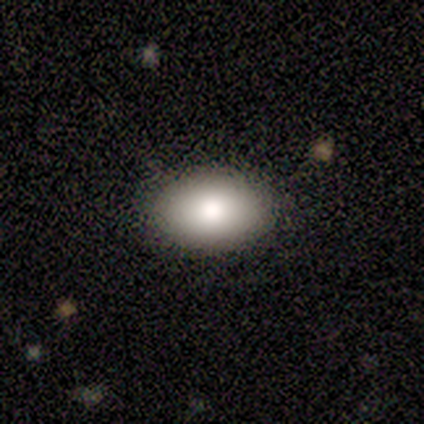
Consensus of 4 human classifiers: A smooth galaxy with no disk features (75%) that is in between round and cigar-shaped (100%). Merging: none (100%).